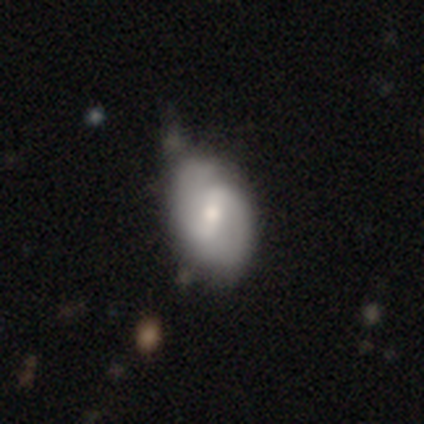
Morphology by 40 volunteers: Q: Smooth or featured?
A: featured or disk (72%); runner-up: smooth (25%)
Q: Edge-on disk?
A: no (100%)
Q: Bar?
A: weak (45%); runner-up: strong (38%)
Q: Spiral arms?
A: yes (79%); runner-up: no (21%)
Q: Spiral winding?
A: medium (48%); runner-up: tight (30%)
Q: Spiral arm count?
A: 2 (96%); runner-up: 1 (4%)
Q: Bulge size?
A: moderate (55%); runner-up: small (34%)
Q: Merging?
A: none (33%); runner-up: minor disturbance (31%)